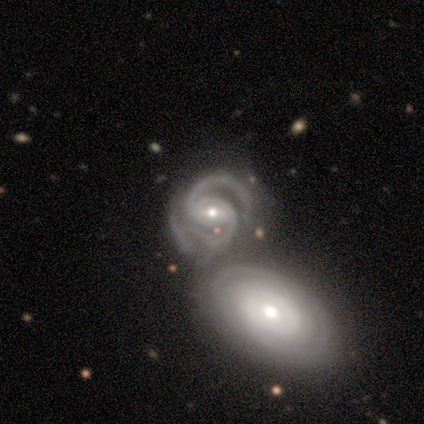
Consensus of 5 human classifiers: Q: Smooth or featured?
A: featured or disk (100%)
Q: Edge-on disk?
A: no (100%)
Q: Bar?
A: strong (40%); tied with: weak (40%)
Q: Spiral arms?
A: yes (100%)
Q: Spiral winding?
A: medium (60%); runner-up: tight (40%)
Q: Spiral arm count?
A: 2 (100%)
Q: Bulge size?
A: moderate (60%); runner-up: small (40%)
Q: Merging?
A: merger (80%); runner-up: none (20%)